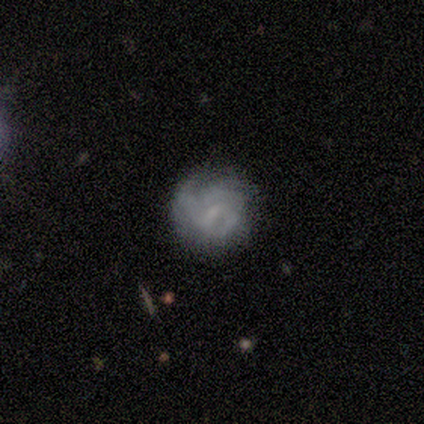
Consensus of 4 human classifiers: A smooth galaxy with no disk features (50%) that is round (50%, tied with in between). Merging: none (100%).